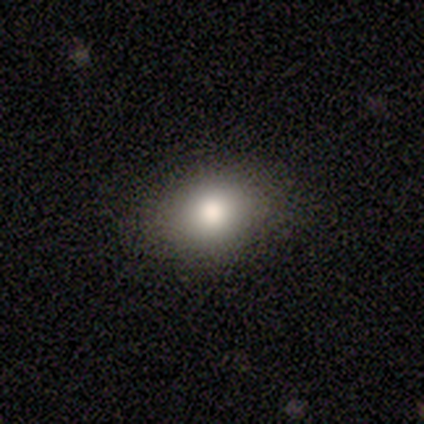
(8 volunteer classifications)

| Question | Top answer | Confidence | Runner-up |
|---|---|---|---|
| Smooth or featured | smooth | 100% | — |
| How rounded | in between | 62% | round (38%) |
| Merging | none | 88% | minor disturbance (12%) |